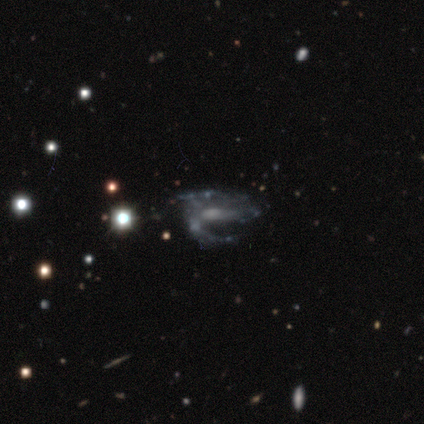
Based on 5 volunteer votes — smooth-or-featured: featured or disk: 80% | star or artifact: 20% | smooth: 0%
  disk-edge-on: no: 100% | yes: 0%
    bar: no: 50% | strong: 25% | weak: 25%
    has-spiral-arms: yes: 100% | no: 0%
      spiral-winding: medium: 75% | tight: 25% | loose: 0%
      spiral-arm-count: 2: 100% | 1: 0% | 3: 0% | 4: 0% | more than 4: 0% | can't tell: 0%
    bulge-size: moderate: 50% (tied) | small: 50% (tied) | dominant: 0% | large: 0% | none: 0%
  merging: major disturbance: 50% | none: 25% | minor disturbance: 25% | merger: 0%